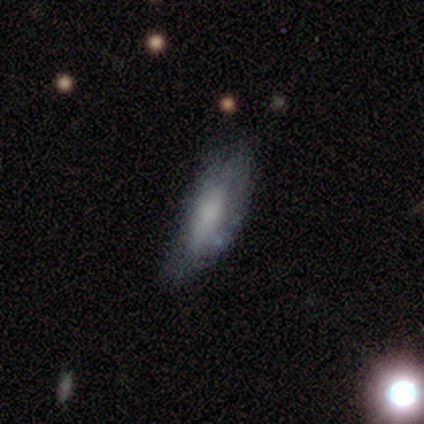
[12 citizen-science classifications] Smooth or featured: smooth — 67% (featured or disk — 33%)
How rounded: in between — 75% (cigar-shaped — 25%)
Merging: none — 58% (minor disturbance — 33%)